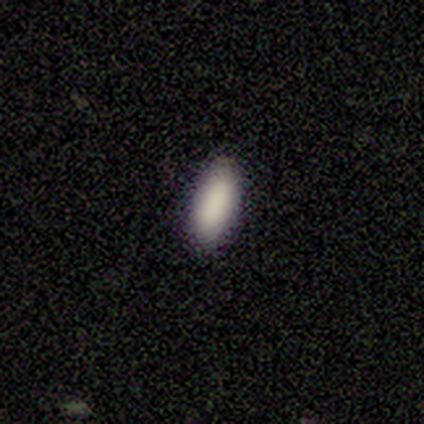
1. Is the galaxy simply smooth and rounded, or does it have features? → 100% smooth, 0% featured or disk, 0% star or artifact.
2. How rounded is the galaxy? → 100% in between, 0% round, 0% cigar-shaped.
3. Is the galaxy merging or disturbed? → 100% none, 0% minor disturbance, 0% major disturbance, 0% merger.